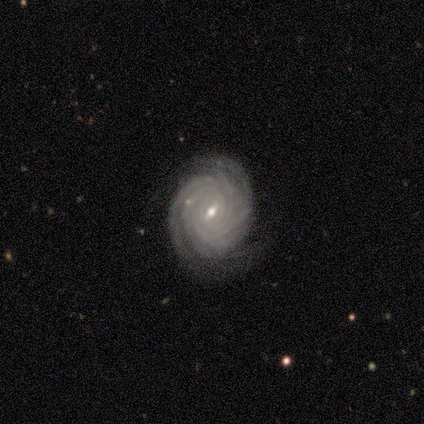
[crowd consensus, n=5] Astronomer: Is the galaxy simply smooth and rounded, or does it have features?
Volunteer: featured or disk — 100%.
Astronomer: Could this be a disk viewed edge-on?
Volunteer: no — 100%.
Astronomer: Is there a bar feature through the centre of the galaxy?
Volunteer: weak — 60% (runner-up: strong, 40%).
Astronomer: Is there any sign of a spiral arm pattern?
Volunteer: yes — 100%.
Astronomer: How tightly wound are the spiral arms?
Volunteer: tight — 100%.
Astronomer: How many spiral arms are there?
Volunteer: more than 4 — 60% (runner-up: can't tell, 40%).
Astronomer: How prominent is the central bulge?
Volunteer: moderate — 40%, tied with small at 40%.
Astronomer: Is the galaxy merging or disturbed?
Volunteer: none — 100%.